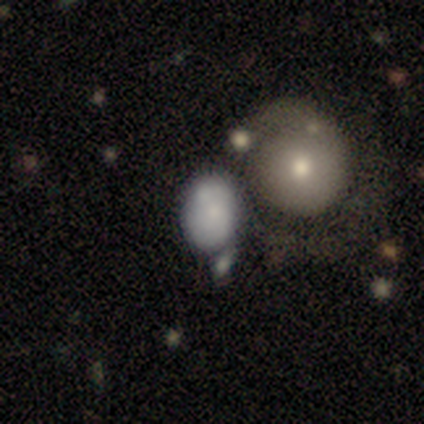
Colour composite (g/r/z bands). It shows a smooth galaxy with no disk features (70%) that is in between round and cigar-shaped (71%). Merging: merger (38%).